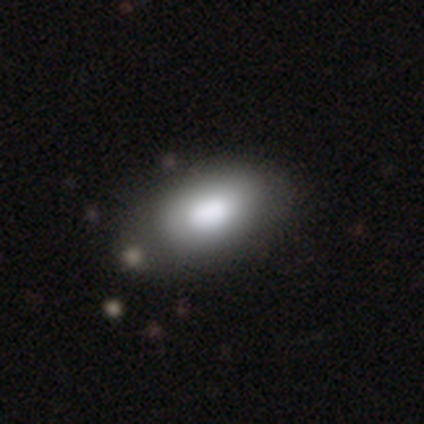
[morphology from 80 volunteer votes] Volunteers were most divided on "merging": none: 36%, minor disturbance: 9%, major disturbance: 4%, merger: 3%. More confident: how rounded — in between (94%); smooth or featured — smooth (86%).